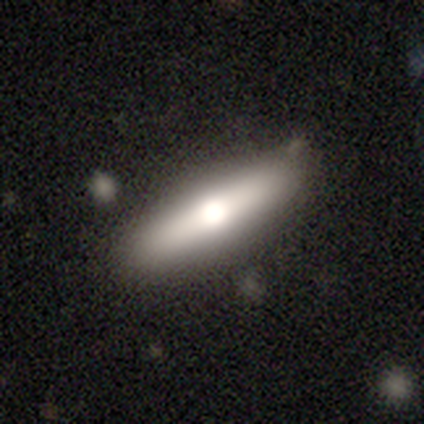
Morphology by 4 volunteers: Smooth or featured: smooth — 50% (tied with featured or disk — 50%)
How rounded: in between — 50% (tied with cigar-shaped — 50%)
Merging: none — 100%